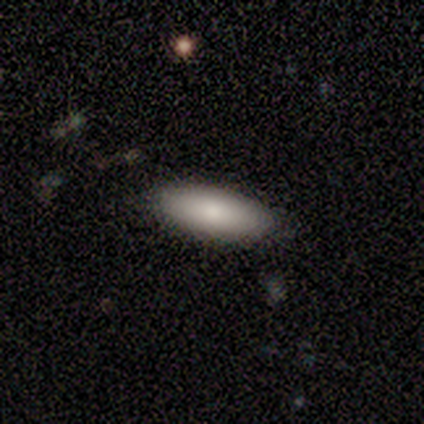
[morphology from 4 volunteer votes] smooth 100%, featured or disk 0%, star or artifact 0%. Down the decision tree: how rounded — in between (75%); merging — none (75%).